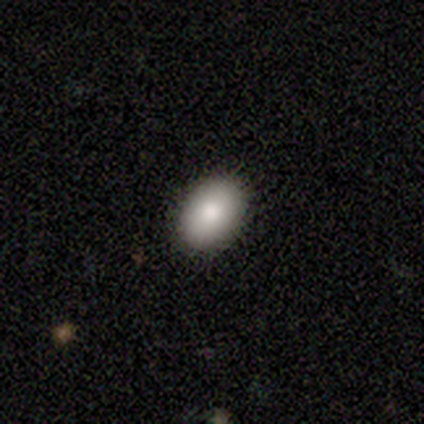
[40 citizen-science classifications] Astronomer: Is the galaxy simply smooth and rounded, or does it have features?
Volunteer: smooth — 75%.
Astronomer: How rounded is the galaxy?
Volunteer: in between — 90%.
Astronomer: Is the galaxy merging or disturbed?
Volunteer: none — 95%.